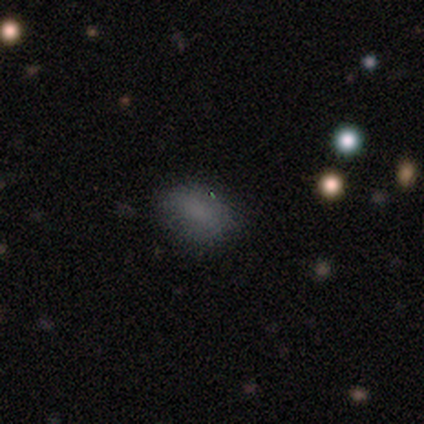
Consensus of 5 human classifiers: Overall: smooth (80%). How rounded: in between (75%). Merging: none (60%; minor disturbance 40%).